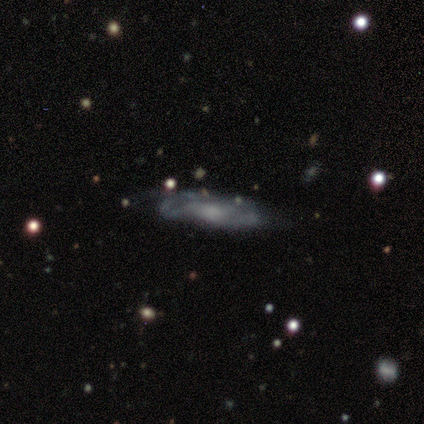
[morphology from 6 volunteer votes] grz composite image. It shows a featured or disk galaxy (83%) viewed edge-on (60%) with no central bulge (67%). Merging: none (50%, tied with minor disturbance).